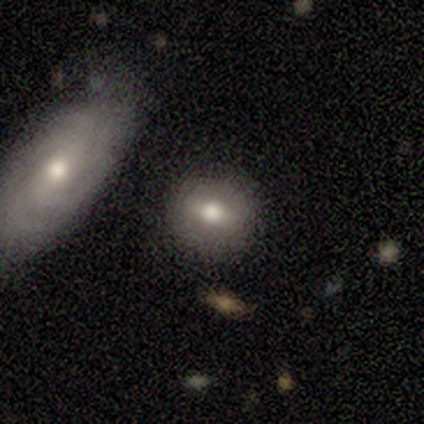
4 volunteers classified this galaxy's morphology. smooth 75%, featured or disk 25%, star or artifact 0%. Down the decision tree: how rounded — round (67%); merging — none (100%).